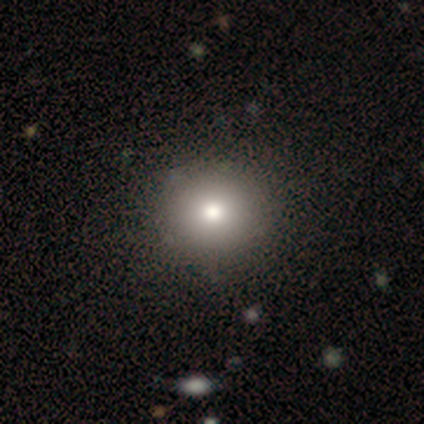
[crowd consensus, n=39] Q: Smooth or featured?
A: smooth (87%); runner-up: featured or disk (8%)
Q: How rounded?
A: round (97%); runner-up: in between (3%)
Q: Merging?
A: none (86%); runner-up: minor disturbance (3%)